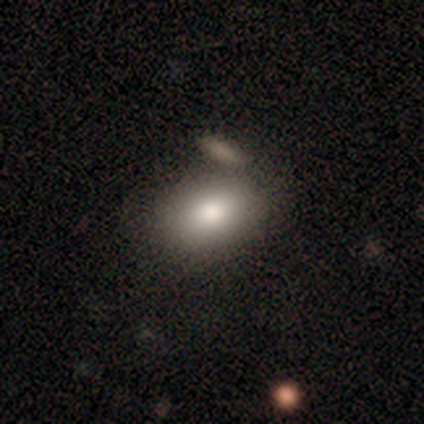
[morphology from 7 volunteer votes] A smooth galaxy with no disk features (71%) that is in between round and cigar-shaped (100%). Merging: none (71%).